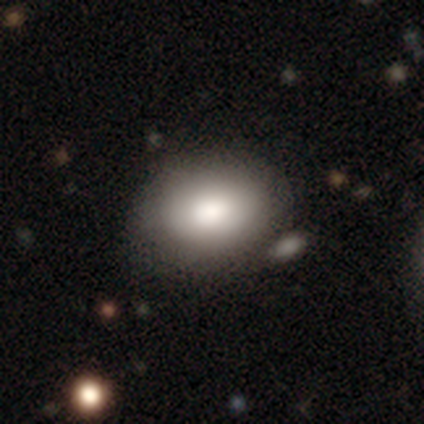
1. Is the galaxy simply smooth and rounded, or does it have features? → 94% smooth, 6% featured or disk, 0% star or artifact.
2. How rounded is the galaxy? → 74% in between, 26% round, 0% cigar-shaped.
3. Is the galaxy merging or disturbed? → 29% none, 15% merger, 8% major disturbance, 6% minor disturbance.